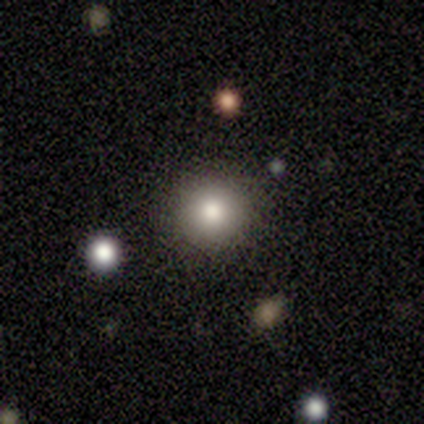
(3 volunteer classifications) Q: Smooth or featured?
A: smooth (100%)
Q: How rounded?
A: round (100%)
Q: Merging?
A: none (100%)